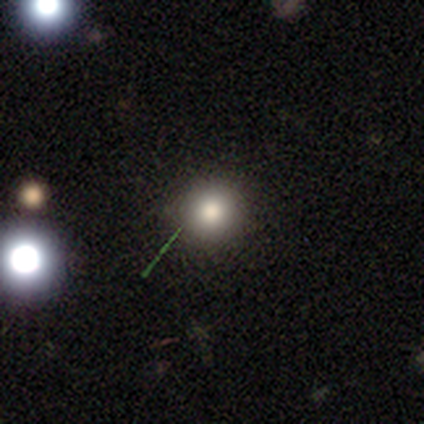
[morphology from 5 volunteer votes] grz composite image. It shows a smooth galaxy with no disk features (100%) that is round (100%). Merging: none (80%).